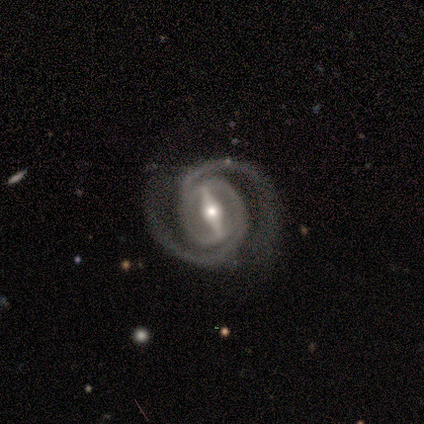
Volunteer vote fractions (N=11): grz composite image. It shows a featured or disk galaxy (82%) with a strong bar (89%), 2 (100%) medium (56%) spiral arms (100%) and a moderate central bulge (78%). Merging: none (70%).